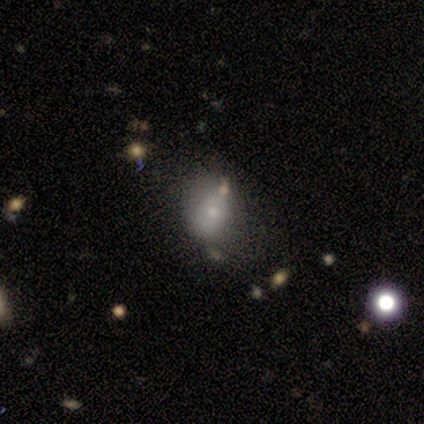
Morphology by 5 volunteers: This is likely a smooth galaxy (60%). How rounded: likely in between (67%). Merging: likely none (75%).